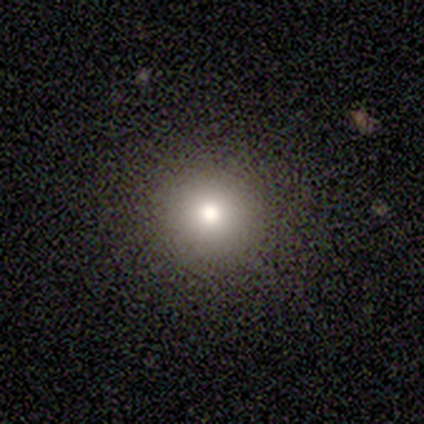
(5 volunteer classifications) smooth-or-featured: smooth: 80% | star or artifact: 20% | featured or disk: 0%
  how-rounded: round: 100% | in between: 0% | cigar-shaped: 0%
  merging: none: 100% | minor disturbance: 0% | major disturbance: 0% | merger: 0%